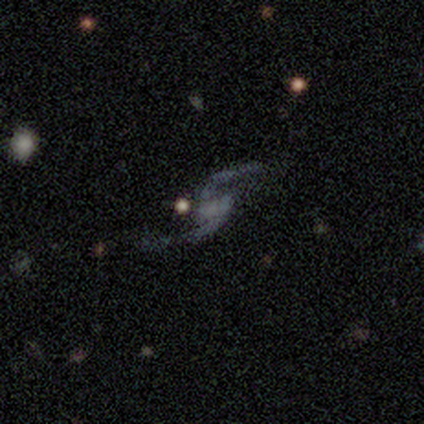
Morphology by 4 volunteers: featured or disk 100%, smooth 0%, star or artifact 0%. Down the decision tree: edge-on disk — no (100%); bar — no (50%); spiral arms — yes (75%); spiral arm count — 2 (100%); spiral winding — loose (100%); bulge size — none (100%); merging — none (75%).